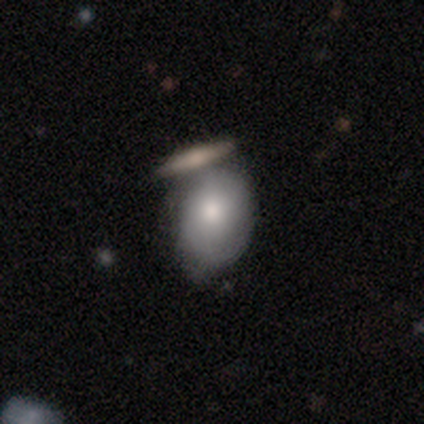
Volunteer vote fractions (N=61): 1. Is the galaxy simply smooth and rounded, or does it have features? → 72% smooth, 23% featured or disk, 5% star or artifact.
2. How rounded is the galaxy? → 64% in between, 32% round, 5% cigar-shaped.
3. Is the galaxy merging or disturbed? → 38% none, 31% merger, 24% minor disturbance, 7% major disturbance.